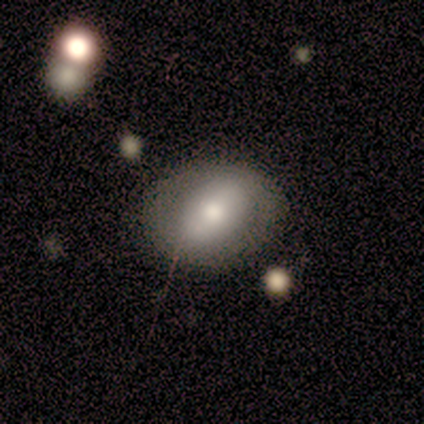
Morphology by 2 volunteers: A smooth galaxy with no disk features (50%, tied with featured or disk) that is in between round and cigar-shaped (100%).

Vote fractions:
- Smooth or featured? smooth: 50% (tied) / featured or disk: 50% (tied) / star or artifact: 0%
- How rounded? in between: 100% / round: 0% / cigar-shaped: 0%
- Merging? none: 100% / minor disturbance: 0% / major disturbance: 0% / merger: 0%